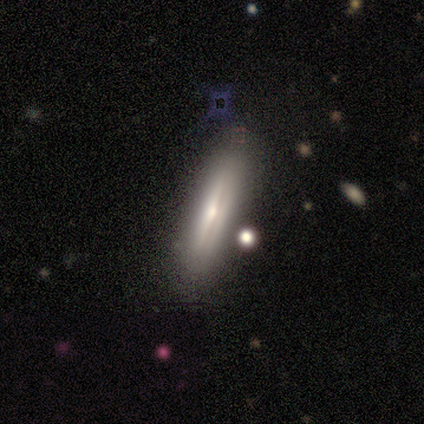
Volunteers were most divided on "merging": none: 80%, minor disturbance: 20%, major disturbance: 0%, merger: 0%. More confident: smooth or featured — featured or disk (100%); edge-on disk — yes (100%); edge-on bulge — rounded (100%).